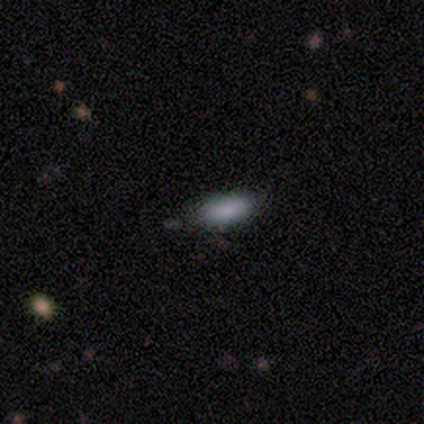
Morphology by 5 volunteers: type=smooth (100%); roundness=in between (100%); merging=none (100%).